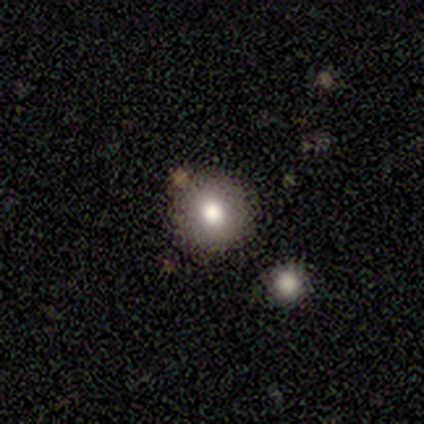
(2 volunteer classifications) Smooth or featured?
  - smooth: 50% * (tied)
  - star or artifact: 50% * (tied)
  - featured or disk: 0%
How rounded?
  - round: 100% *
  - in between: 0%
  - cigar-shaped: 0%
Merging?
  - none: 100% *
  - minor disturbance: 0%
  - major disturbance: 0%
  - merger: 0%